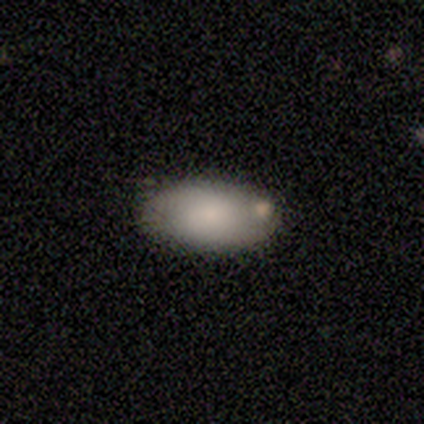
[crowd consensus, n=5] smooth-or-featured: smooth: 80% | featured or disk: 20% | star or artifact: 0%
  how-rounded: in between: 100% | round: 0% | cigar-shaped: 0%
  merging: none: 80% | minor disturbance: 20% | major disturbance: 0% | merger: 0%